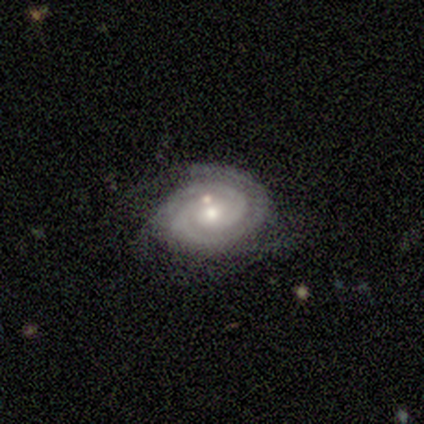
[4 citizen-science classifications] Q: Smooth or featured?
A: featured or disk (75%); runner-up: smooth (25%)
Q: Edge-on disk?
A: no (100%)
Q: Bar?
A: no (100%)
Q: Spiral arms?
A: yes (100%)
Q: Spiral winding?
A: tight (67%); runner-up: medium (33%)
Q: Spiral arm count?
A: 2 (100%)
Q: Bulge size?
A: small (100%)
Q: Merging?
A: none (75%); runner-up: major disturbance (25%)